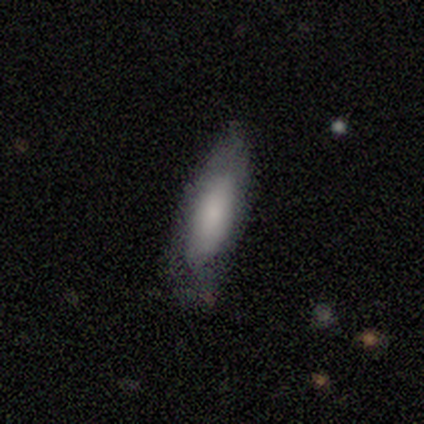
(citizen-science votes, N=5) Q: Smooth or featured?
A: smooth (60%); runner-up: featured or disk (20%)
Q: How rounded?
A: in between (100%)
Q: Merging?
A: none (50%); tied with: minor disturbance (50%)